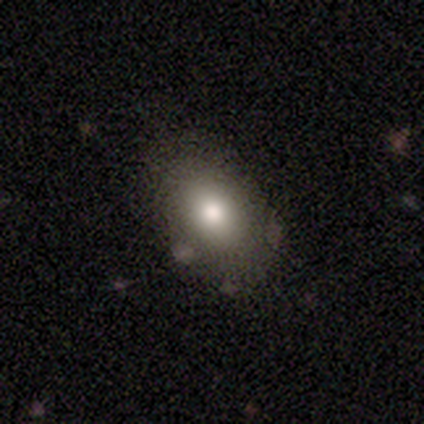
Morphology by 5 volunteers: A star or artifact, not a galaxy (60%).

Vote fractions:
- Smooth or featured? star or artifact: 60% / smooth: 20% / featured or disk: 20%